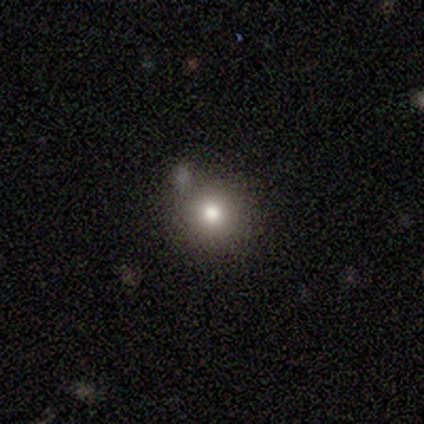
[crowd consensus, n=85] Smooth or featured? 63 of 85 (74%) said smooth. How rounded? 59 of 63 (94%) said round. Merging? 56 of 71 (79%) said none.